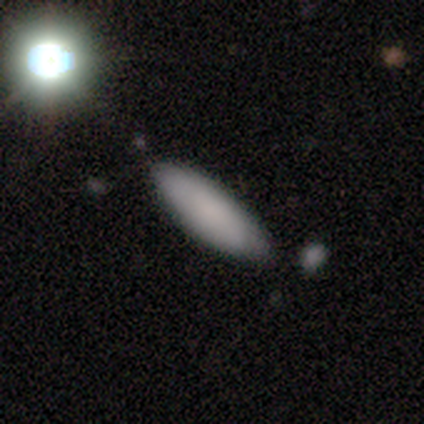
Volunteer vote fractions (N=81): This appears to be a smooth galaxy with no disk features (72%) that is cigar-shaped (57%). Merging: none (80%).